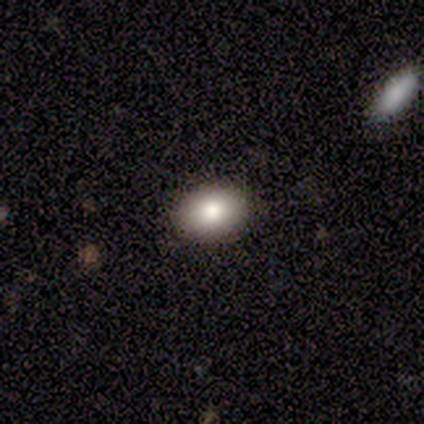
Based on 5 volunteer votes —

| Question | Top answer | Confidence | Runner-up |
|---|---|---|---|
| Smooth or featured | smooth | 60% | featured or disk (20%) |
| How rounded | in between | 100% | — |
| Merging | none | 100% | — |